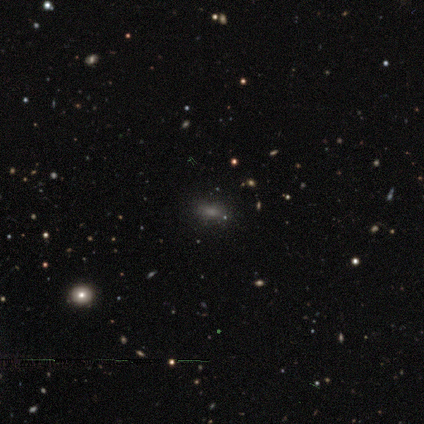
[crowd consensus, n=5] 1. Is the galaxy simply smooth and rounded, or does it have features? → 100% smooth, 0% featured or disk, 0% star or artifact.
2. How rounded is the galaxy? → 80% in between, 20% round, 0% cigar-shaped.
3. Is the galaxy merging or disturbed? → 100% none, 0% minor disturbance, 0% major disturbance, 0% merger.